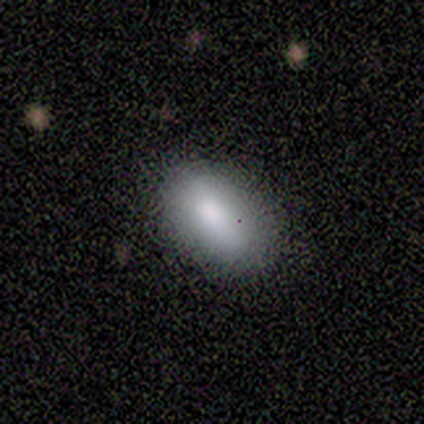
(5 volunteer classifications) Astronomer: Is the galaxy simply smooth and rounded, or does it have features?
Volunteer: smooth — 80%.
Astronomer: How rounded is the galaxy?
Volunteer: in between — 75%.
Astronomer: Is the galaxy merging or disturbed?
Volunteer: none — 75%.